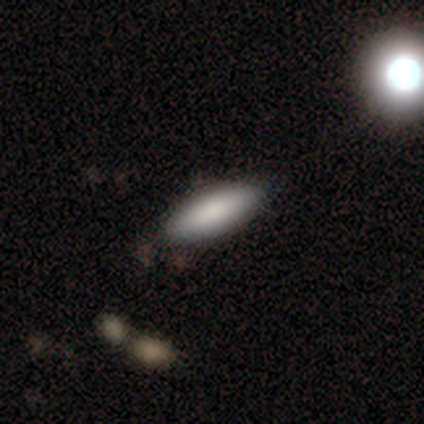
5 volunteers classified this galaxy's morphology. Volunteers were most divided on "smooth or featured": smooth: 60%, star or artifact: 40%, featured or disk: 0%. More confident: merging — none (100%); how rounded — in between (67%).